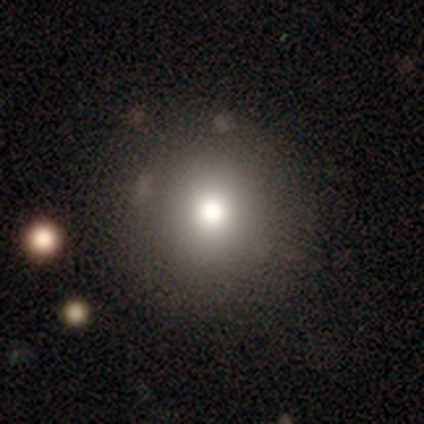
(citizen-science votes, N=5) A smooth galaxy with no disk features (80%) that is round (100%). Merging: none (100%).